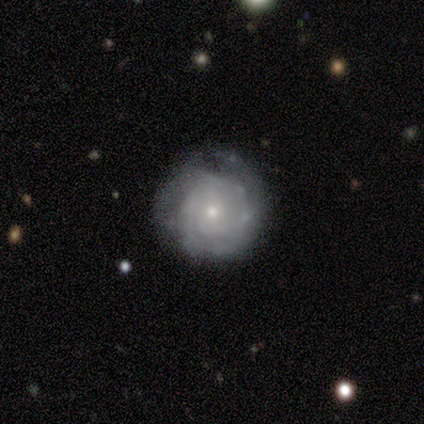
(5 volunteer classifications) Smooth or featured? featured or disk (80%)
Edge-on disk? no (100%)
Bar? no (75%)
Spiral arms? yes (100%)
Spiral winding? tight (75%)
Spiral arm count? 2 (25%, tied with 3, more than 4 and can't tell)
Bulge size? small (100%)
Merging? none (100%)